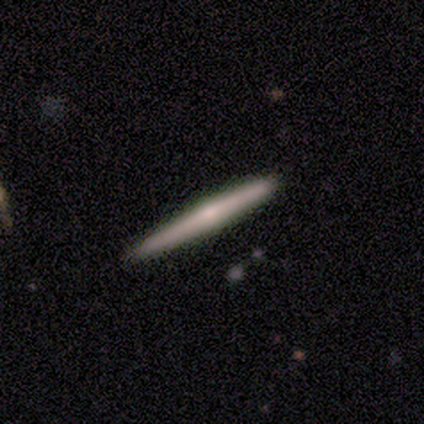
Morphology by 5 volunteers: type=smooth (60%); roundness=cigar-shaped (100%); merging=none (100%).